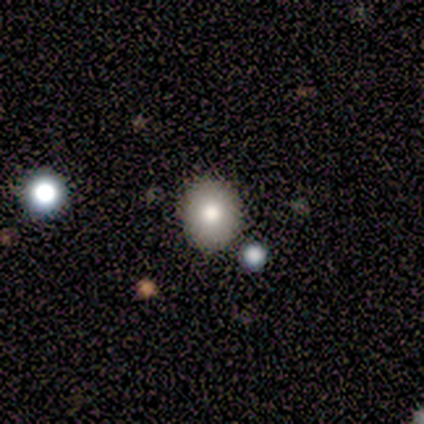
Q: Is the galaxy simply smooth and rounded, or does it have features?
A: smooth — 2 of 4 (50%).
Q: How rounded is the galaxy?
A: round — 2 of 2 (100%).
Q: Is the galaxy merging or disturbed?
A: none — 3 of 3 (100%).